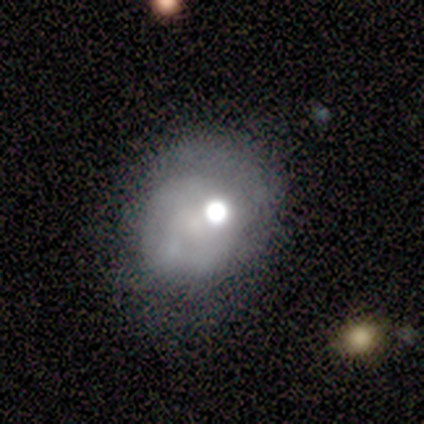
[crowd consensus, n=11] smooth-or-featured: featured or disk: 73% | smooth: 18% | star or artifact: 9%
  disk-edge-on: no: 100% | yes: 0%
    bar: no: 88% | weak: 12% | strong: 0%
    has-spiral-arms: no: 75% | yes: 25%
    bulge-size: large: 38% | moderate: 25% | dominant: 12% | small: 12% | none: 12%
  merging: minor disturbance: 70% | none: 30% | major disturbance: 0% | merger: 0%